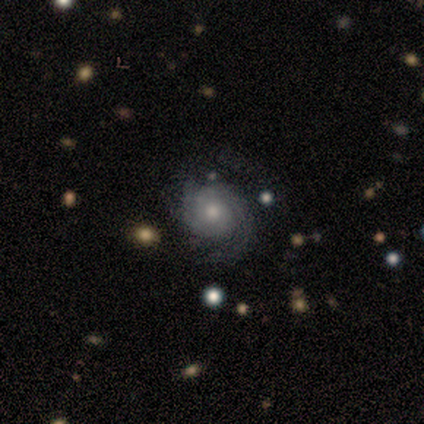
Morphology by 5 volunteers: This appears to be a featured or disk galaxy (80%) with no bar (100%), 1 (50%) tight (50%, tied with medium) spiral arms (100%) and a small central bulge (50%). Merging: none (80%).